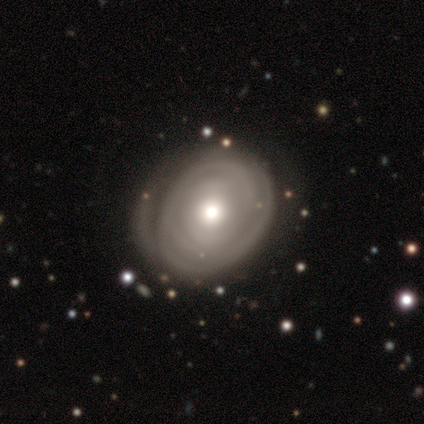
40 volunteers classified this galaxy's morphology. A featured or disk galaxy (72%) with no bar (78%), tight (91%) spiral arms (85%) and a moderate central bulge (63%).

Vote fractions:
- Smooth or featured? featured or disk: 72% / smooth: 22% / star or artifact: 5%
- Edge-on disk? no: 93% / yes: 7%
- Bar? no: 78% / strong: 11% / weak: 11%
- Spiral arms? yes: 85% / no: 15%
- Spiral winding? tight: 91% / medium: 4% / loose: 4%
- Spiral arm count? can't tell: 70% / 1: 13% / 3: 9% / more than 4: 9% / 2: 0% / 4: 0%
- Bulge size? moderate: 63% / small: 22% / large: 15% / dominant: 0% / none: 0%
- Merging? none: 61% / minor disturbance: 26% / major disturbance: 13% / merger: 0%